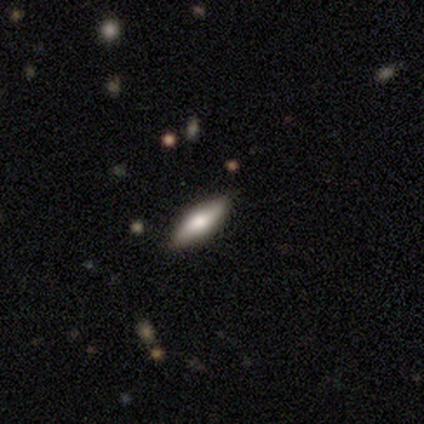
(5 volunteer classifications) Smooth or featured?
  - featured or disk: 60% *
  - smooth: 20%
  - star or artifact: 20%
Edge-on disk?
  - yes: 100% *
  - no: 0%
Edge-on bulge?
  - rounded: 100% *
  - boxy: 0%
  - none: 0%
Merging?
  - none: 100% *
  - minor disturbance: 0%
  - major disturbance: 0%
  - merger: 0%